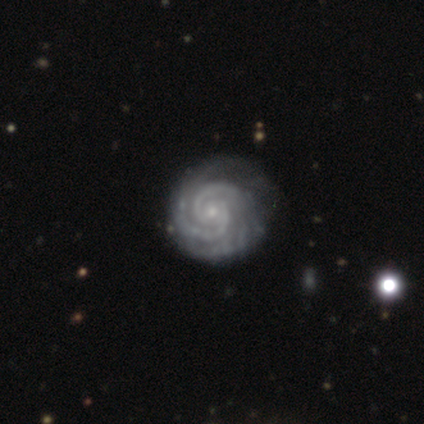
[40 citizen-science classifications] featured or disk 98%, star or artifact 2%, smooth 0%. Down the decision tree: edge-on disk — no (100%); bar — no (62%); spiral arms — yes (97%); spiral arm count — 2 (76%); spiral winding — tight (79%); bulge size — small (87%); merging — none (44%).